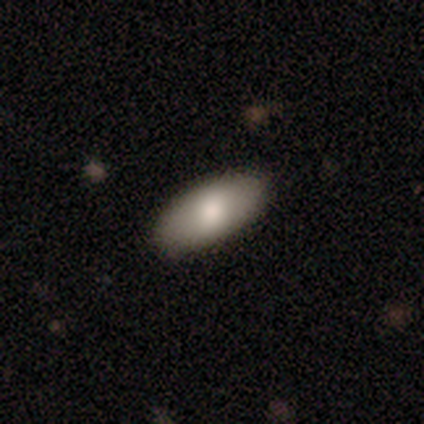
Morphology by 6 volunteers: Volunteers were most divided on "smooth or featured": smooth: 67%, featured or disk: 33%, star or artifact: 0%. More confident: how rounded — in between (100%); merging — none (100%).